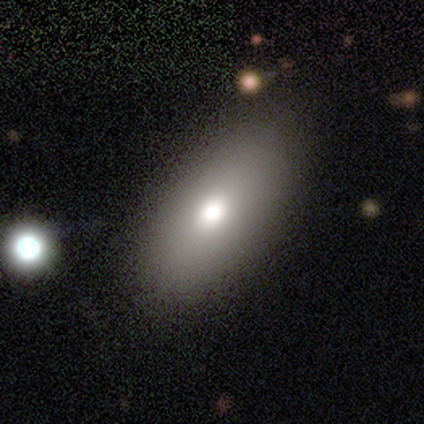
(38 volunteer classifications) A smooth galaxy with no disk features (84%) that is in between round and cigar-shaped (97%).

Vote fractions:
- Smooth or featured? smooth: 84% / featured or disk: 8% / star or artifact: 8%
- How rounded? in between: 97% / round: 3% / cigar-shaped: 0%
- Merging? none: 51% / minor disturbance: 9% / major disturbance: 3% / merger: 0%